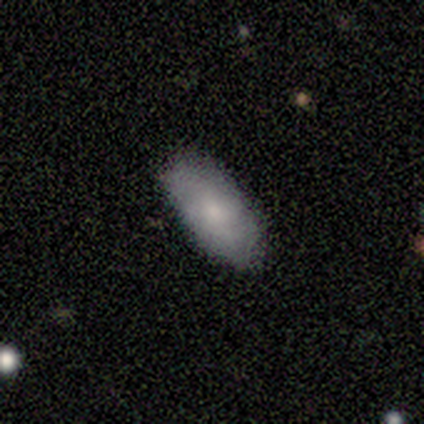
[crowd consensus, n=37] Smooth or featured?
  - smooth: 76% *
  - featured or disk: 22%
  - star or artifact: 3%
How rounded?
  - in between: 96% *
  - round: 4%
  - cigar-shaped: 0%
Merging?
  - none: 83% *
  - minor disturbance: 14%
  - major disturbance: 3%
  - merger: 0%